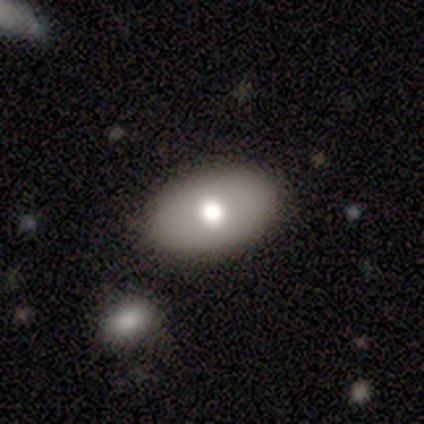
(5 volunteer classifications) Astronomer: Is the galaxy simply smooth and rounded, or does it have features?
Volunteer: smooth — 40%, tied with star or artifact at 40%.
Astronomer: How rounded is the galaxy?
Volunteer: in between — 100%.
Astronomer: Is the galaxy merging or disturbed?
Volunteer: none — 33%, tied with minor disturbance and major disturbance at 33%.